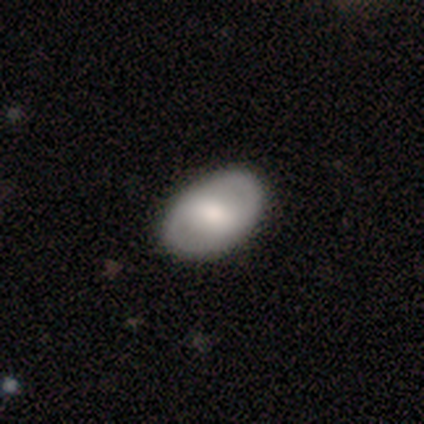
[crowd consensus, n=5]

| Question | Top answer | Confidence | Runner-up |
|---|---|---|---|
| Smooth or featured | featured or disk | 80% | smooth (20%) |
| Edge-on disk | no | 100% | — |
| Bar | weak | 50% | strong (25%) |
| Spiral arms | no | 75% | yes (25%) |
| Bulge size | moderate | 75% | large (25%) |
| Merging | none | 80% | minor disturbance (20%) |